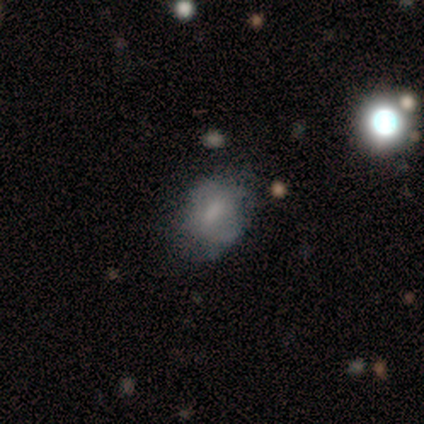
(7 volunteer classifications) Q: Smooth or featured?
A: smooth (57%); runner-up: featured or disk (43%)
Q: How rounded?
A: in between (100%)
Q: Merging?
A: none (57%); runner-up: minor disturbance (43%)